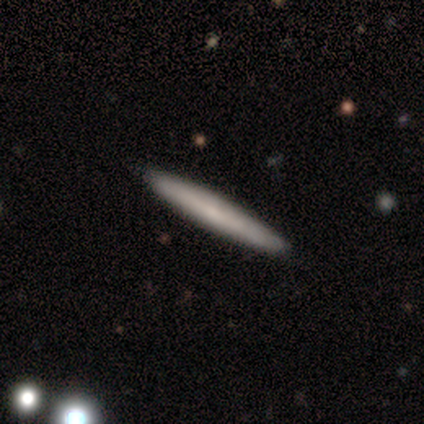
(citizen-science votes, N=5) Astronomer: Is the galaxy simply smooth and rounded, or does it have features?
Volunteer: smooth — 60%.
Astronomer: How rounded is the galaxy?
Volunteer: cigar-shaped — 100%.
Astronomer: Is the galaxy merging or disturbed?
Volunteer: none — 100%.